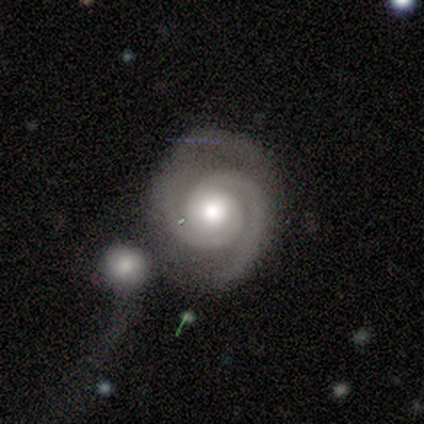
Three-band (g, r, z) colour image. It shows a featured or disk galaxy (100%) with no bar (100%), 2 (100%) tight (80%) spiral arms (100%) and a moderate central bulge (80%). Merging: none (80%).